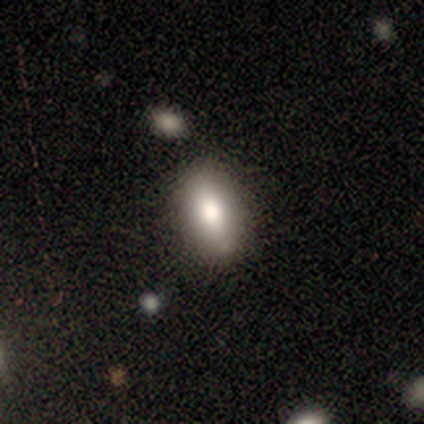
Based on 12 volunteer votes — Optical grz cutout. It shows a smooth galaxy with no disk features (100%) that is in between round and cigar-shaped (83%). Merging: none (75%).